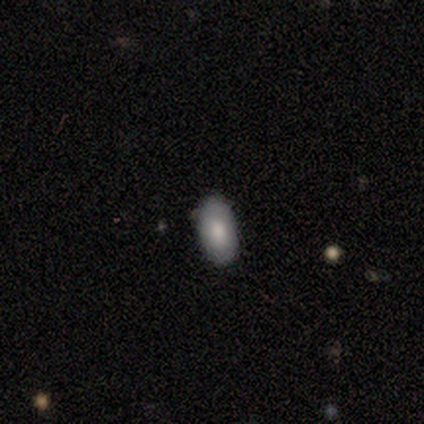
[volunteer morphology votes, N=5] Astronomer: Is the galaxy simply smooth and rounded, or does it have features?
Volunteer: smooth — 80%.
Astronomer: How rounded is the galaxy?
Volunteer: in between — 100%.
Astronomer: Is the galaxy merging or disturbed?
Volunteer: none — 80%.